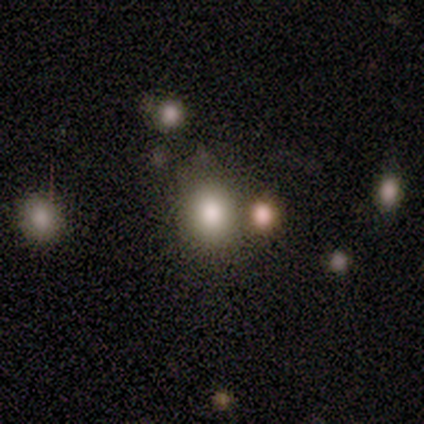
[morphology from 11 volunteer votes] Smooth or featured: smooth — 64% (star or artifact — 36%)
How rounded: round — 57% (in between — 43%)
Merging: none — 57% (minor disturbance — 29%)